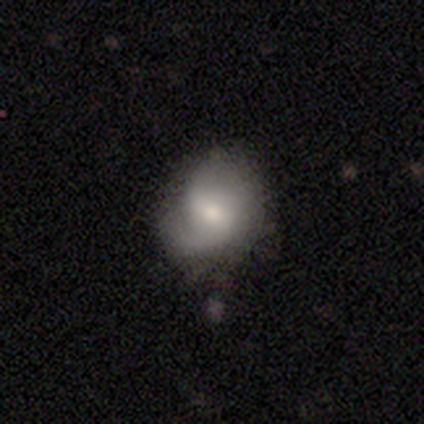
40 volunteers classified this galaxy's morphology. This is likely a featured or disk galaxy (68%). It is clearly not viewed edge-on (93%). Bar: likely weak (60%). Spiral arm pattern: clearly yes (96%). Spiral arm count: possibly 2 (58%). Spiral winding: possibly medium (46%). Central bulge: likely moderate (60%). Merging: marginally none (38%).